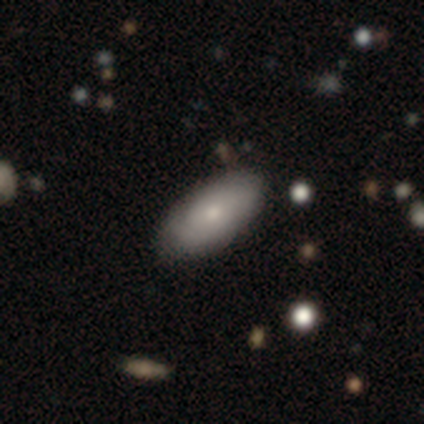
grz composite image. It shows a smooth galaxy with no disk features (77%) that is in between round and cigar-shaped (97%). Merging: none (84%).